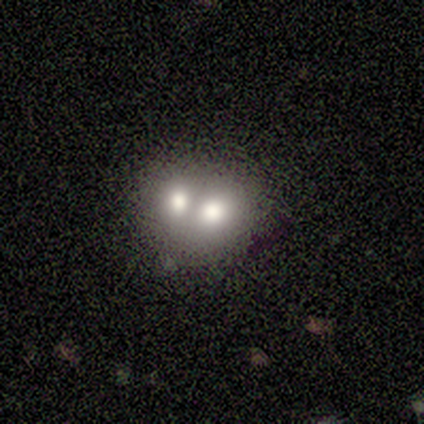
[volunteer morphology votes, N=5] type=featured or disk (80%); edge-on=no (100%); bar=no (100%); spiral arms=no (100%); bulge=moderate (75%); merging=merger (80%).